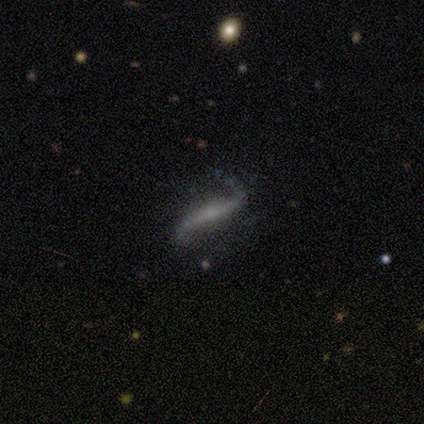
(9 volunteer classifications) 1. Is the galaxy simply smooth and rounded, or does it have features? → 89% featured or disk, 11% smooth, 0% star or artifact.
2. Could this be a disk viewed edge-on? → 88% no, 12% yes.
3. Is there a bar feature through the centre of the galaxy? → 57% strong, 29% no, 14% weak.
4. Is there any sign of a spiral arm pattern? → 100% yes, 0% no.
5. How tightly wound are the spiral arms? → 100% loose, 0% tight, 0% medium.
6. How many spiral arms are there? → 71% 2, 29% 1, 0% 3, 0% 4, 0% more than 4, 0% can't tell.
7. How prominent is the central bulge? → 71% small, 14% moderate, 14% none, 0% dominant, 0% large.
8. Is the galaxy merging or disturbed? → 67% none, 33% minor disturbance, 0% major disturbance, 0% merger.